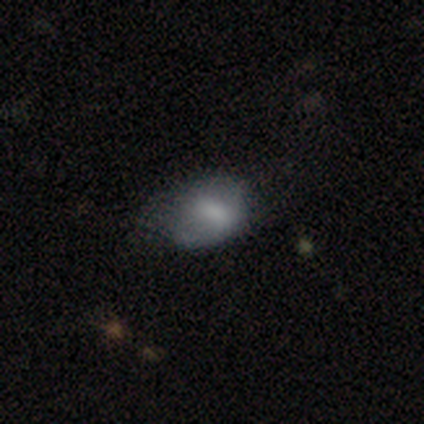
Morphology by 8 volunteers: A smooth galaxy with no disk features (38%, tied with featured or disk) that is in between round and cigar-shaped (67%).

Vote fractions:
- Smooth or featured? smooth: 38% (tied) / featured or disk: 38% (tied) / star or artifact: 25%
- How rounded? in between: 67% / round: 33% / cigar-shaped: 0%
- Merging? minor disturbance: 67% / none: 17% / major disturbance: 17% / merger: 0%